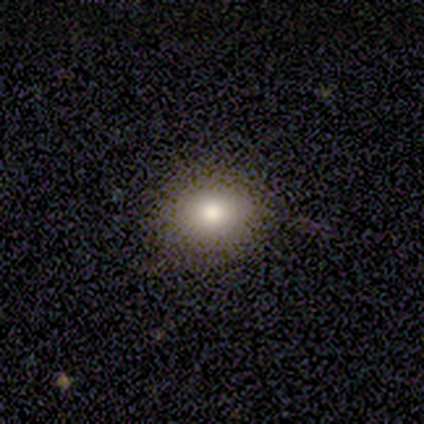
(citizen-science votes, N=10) A smooth galaxy with no disk features (70%) that is in between round and cigar-shaped (57%). Merging: none (86%).